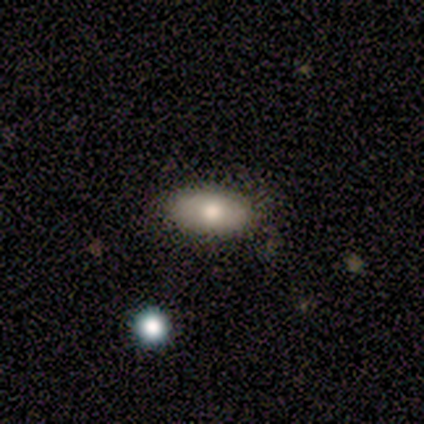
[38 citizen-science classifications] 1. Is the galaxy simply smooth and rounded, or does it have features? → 74% smooth, 21% featured or disk, 5% star or artifact.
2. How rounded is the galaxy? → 93% in between, 4% round, 4% cigar-shaped.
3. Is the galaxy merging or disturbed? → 69% none, 11% minor disturbance, 3% major disturbance, 3% merger.